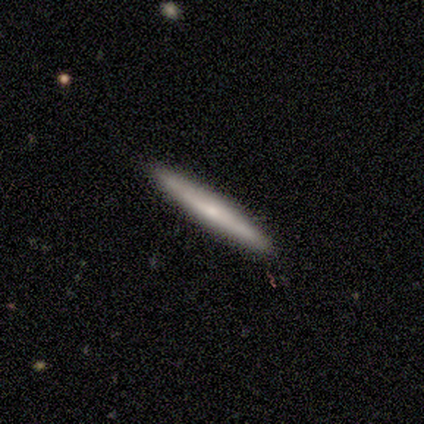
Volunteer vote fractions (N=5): This is likely a featured or disk galaxy (60%). It is clearly viewed edge-on (100%). Edge-on bulge: likely none (67%). Merging: clearly none (100%).